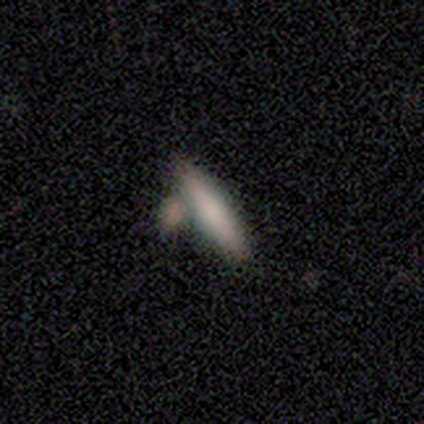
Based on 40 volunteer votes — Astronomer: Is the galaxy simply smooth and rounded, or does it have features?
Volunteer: smooth — 82%.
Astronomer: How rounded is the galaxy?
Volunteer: cigar-shaped — 82%.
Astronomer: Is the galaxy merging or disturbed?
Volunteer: none — 39% (runner-up: merger, 37%).